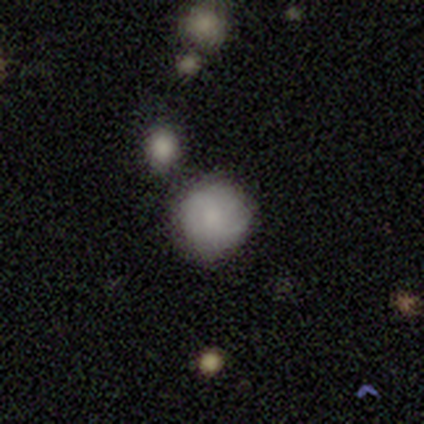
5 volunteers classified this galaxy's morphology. Smooth or featured?
  - smooth: 60% *
  - featured or disk: 40%
  - star or artifact: 0%
How rounded?
  - round: 67% *
  - in between: 33%
  - cigar-shaped: 0%
Merging?
  - none: 60% *
  - merger: 40%
  - minor disturbance: 0%
  - major disturbance: 0%